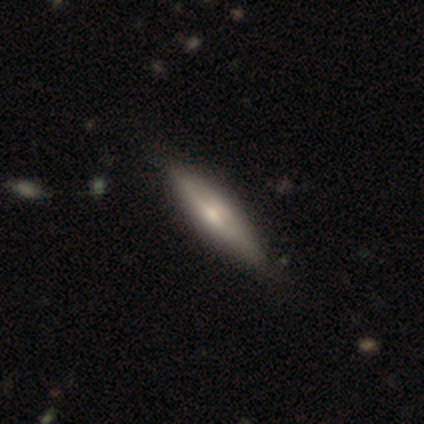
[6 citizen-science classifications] Overall: smooth (67%). How rounded: cigar-shaped (75%). Merging: none (40%, tied with minor disturbance).